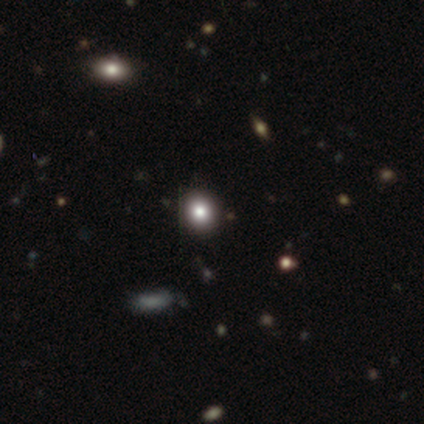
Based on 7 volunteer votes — Smooth or featured?
  - smooth: 71% *
  - featured or disk: 14%
  - star or artifact: 14%
How rounded?
  - round: 80% *
  - in between: 20%
  - cigar-shaped: 0%
Merging?
  - none: 100% *
  - minor disturbance: 0%
  - major disturbance: 0%
  - merger: 0%